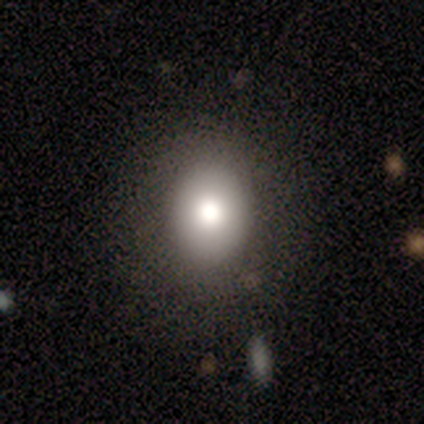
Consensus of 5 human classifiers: A smooth galaxy with no disk features (60%) that is round (67%).

Vote fractions:
- Smooth or featured? smooth: 60% / featured or disk: 20% / star or artifact: 20%
- How rounded? round: 67% / in between: 33% / cigar-shaped: 0%
- Merging? none: 50% / minor disturbance: 25% / major disturbance: 25% / merger: 0%